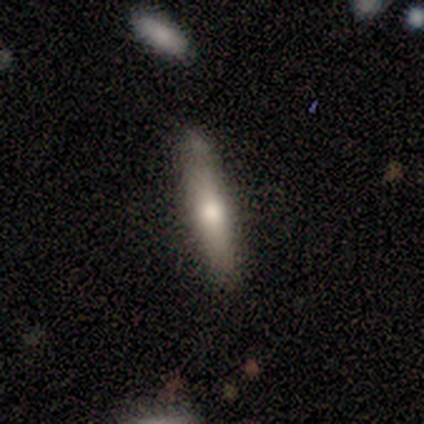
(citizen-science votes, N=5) A smooth galaxy with no disk features (80%) that is cigar-shaped (100%). Merging: none (100%).